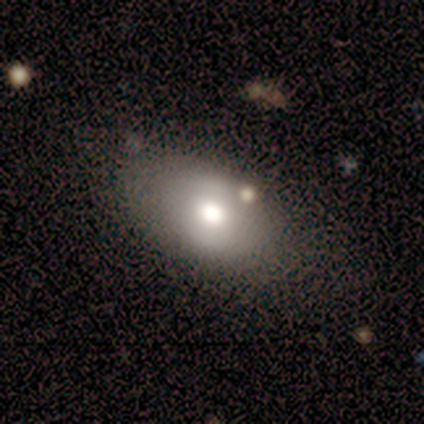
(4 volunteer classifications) Overall: smooth (50%; featured or disk 25%). How rounded: in between (100%). Merging: none (100%).